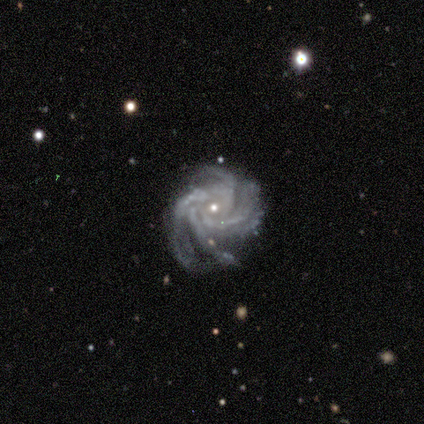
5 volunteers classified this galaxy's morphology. Smooth or featured? featured or disk (80%)
Edge-on disk? no (100%)
Bar? no (100%)
Spiral arms? yes (100%)
Spiral winding? tight (75%)
Spiral arm count? 4 (75%)
Bulge size? small (75%)
Merging? none (50%, tied with minor disturbance)